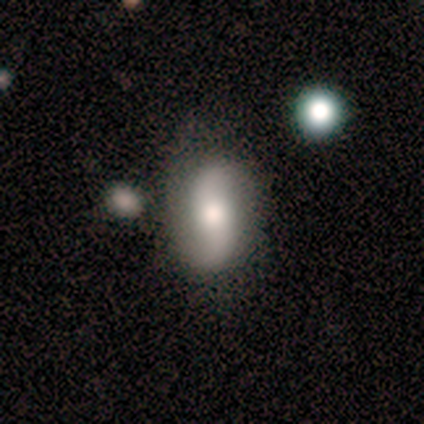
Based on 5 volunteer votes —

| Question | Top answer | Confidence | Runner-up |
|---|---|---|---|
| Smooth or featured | featured or disk | 80% | smooth (20%) |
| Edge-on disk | no | 100% | — |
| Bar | weak | 50% | strong (25%) |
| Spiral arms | yes | 100% | — |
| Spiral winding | loose | 75% | medium (25%) |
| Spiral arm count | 2 | 100% | — |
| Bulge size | moderate | 100% | — |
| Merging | none | 80% | minor disturbance (20%) |